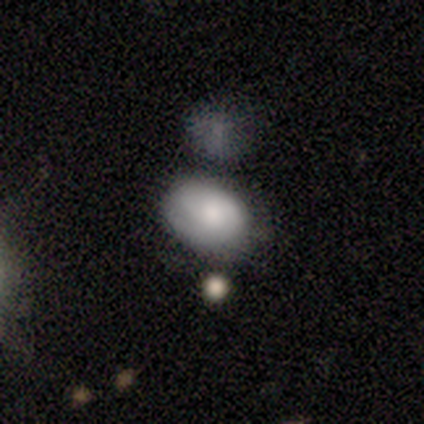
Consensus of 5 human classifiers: smooth 80%, featured or disk 20%, star or artifact 0%. Down the decision tree: how rounded — in between (75%); merging — minor disturbance (60%).